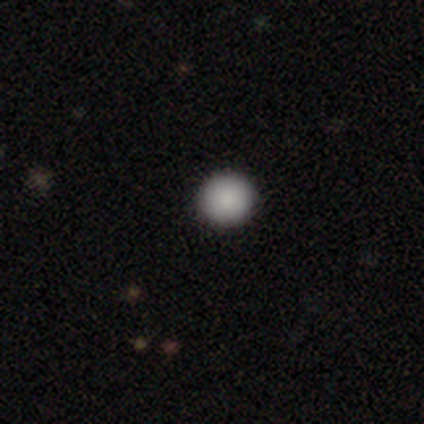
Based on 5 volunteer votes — Smooth or featured? 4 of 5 (80%) said smooth. How rounded? 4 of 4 (100%) said round. Merging? 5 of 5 (100%) said none.